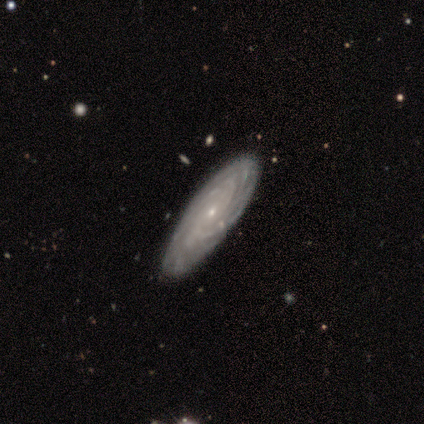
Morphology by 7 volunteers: Q: Smooth or featured?
A: featured or disk (71%); runner-up: smooth (29%)
Q: Edge-on disk?
A: no (100%)
Q: Bar?
A: no (80%); runner-up: weak (20%)
Q: Spiral arms?
A: yes (100%)
Q: Spiral winding?
A: tight (80%); runner-up: medium (20%)
Q: Spiral arm count?
A: can't tell (60%); runner-up: 4 (40%)
Q: Bulge size?
A: small (100%)
Q: Merging?
A: none (100%)